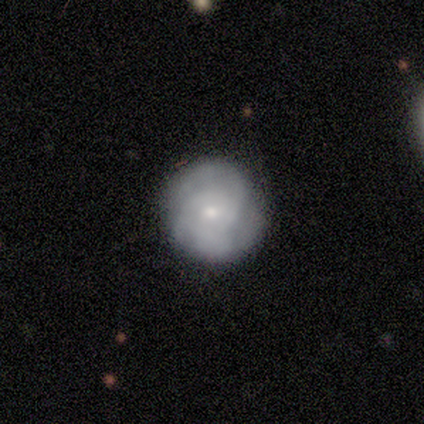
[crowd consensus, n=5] Morphology: type=featured or disk (80%); edge-on=no (100%); bar=no (100%); spiral arms=yes (75%); winding=tight (67%); arm count=3 (100%); bulge=moderate (50%, tied with small); merging=none (80%).